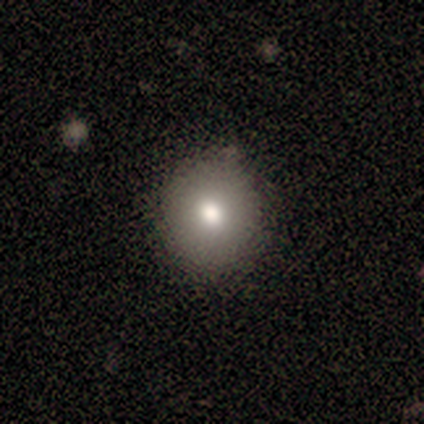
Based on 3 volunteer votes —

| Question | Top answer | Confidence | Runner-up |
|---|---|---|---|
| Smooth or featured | smooth | 67% | featured or disk (33%) |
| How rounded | round | 100% | — |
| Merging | none | 67% | minor disturbance (33%) |